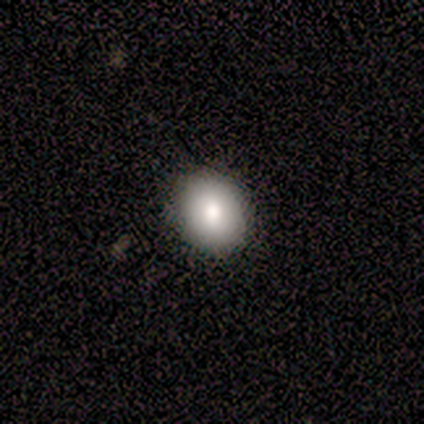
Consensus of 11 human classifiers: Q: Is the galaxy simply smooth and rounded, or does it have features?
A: smooth — 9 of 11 (82%).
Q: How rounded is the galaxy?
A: round — 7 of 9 (78%).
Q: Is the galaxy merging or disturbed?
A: none — 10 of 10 (100%).